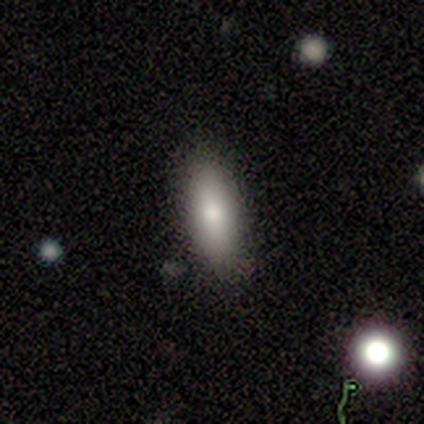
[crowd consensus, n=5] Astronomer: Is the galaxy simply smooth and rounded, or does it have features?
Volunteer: smooth — 40%, tied with featured or disk at 40%.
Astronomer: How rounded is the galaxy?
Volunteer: in between — 50%, tied with cigar-shaped at 50%.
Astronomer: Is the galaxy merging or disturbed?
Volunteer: none — 50%, tied with minor disturbance at 50%.